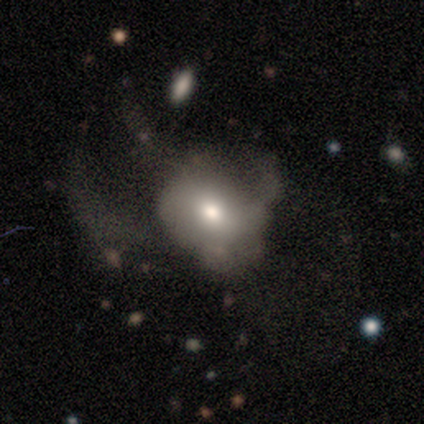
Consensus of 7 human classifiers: A featured or disk galaxy (71%) with no bar (80%), 1 (33%, tied with 2 and 3) loose (100%) spiral arms (60%) and a moderate central bulge (60%). Merging: major disturbance (57%).